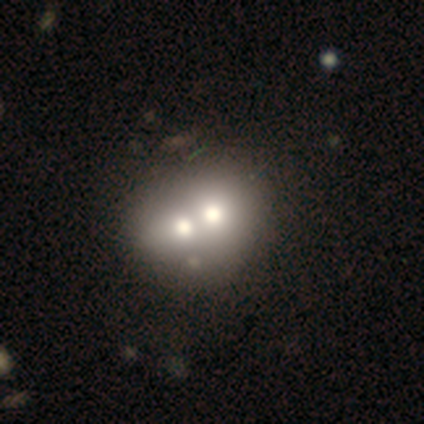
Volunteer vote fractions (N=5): A featured or disk galaxy (80%) with no bar (100%), no spiral arms (100%) and a moderate central bulge (50%). Merging: none (40%, tied with merger).